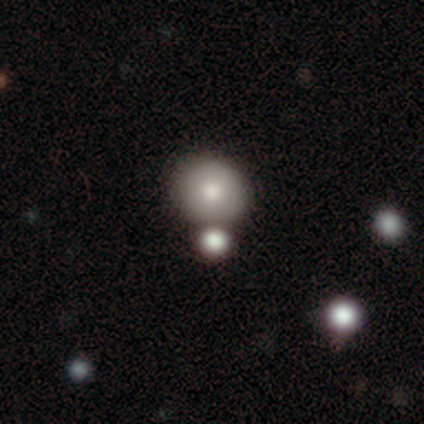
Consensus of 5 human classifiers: A smooth galaxy with no disk features (100%) that is round (100%). Merging: none (60%).